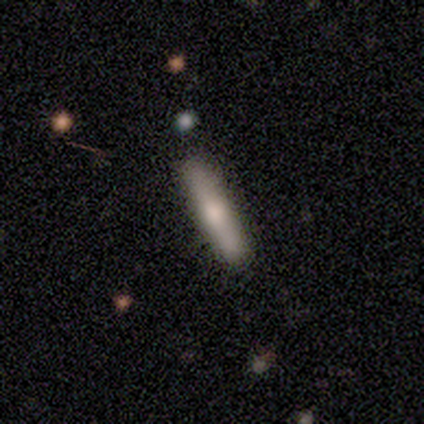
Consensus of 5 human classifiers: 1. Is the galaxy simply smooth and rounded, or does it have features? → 80% smooth, 20% featured or disk, 0% star or artifact.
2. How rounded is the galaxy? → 100% cigar-shaped, 0% round, 0% in between.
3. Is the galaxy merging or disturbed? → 100% none, 0% minor disturbance, 0% major disturbance, 0% merger.